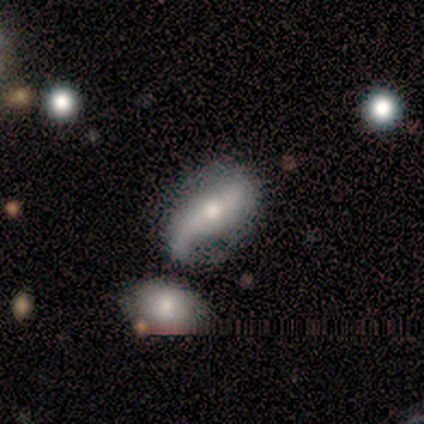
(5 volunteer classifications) A featured or disk galaxy (80%) with no bar (100%), 2 (67%) loose (100%) spiral arms (100%) and a moderate central bulge (100%). Merging: merger (40%).